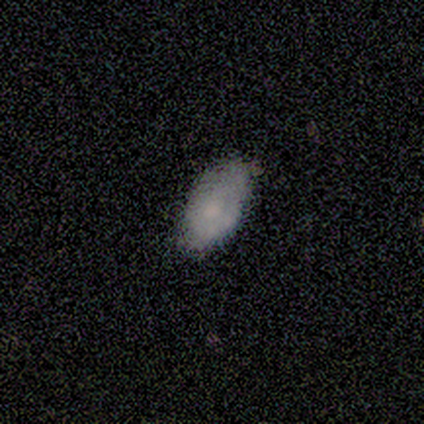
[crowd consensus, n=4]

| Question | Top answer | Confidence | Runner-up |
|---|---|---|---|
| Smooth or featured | smooth | 75% | featured or disk (25%) |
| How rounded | in between | 100% | — |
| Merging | none | 50% | tied: minor disturbance (50%) |